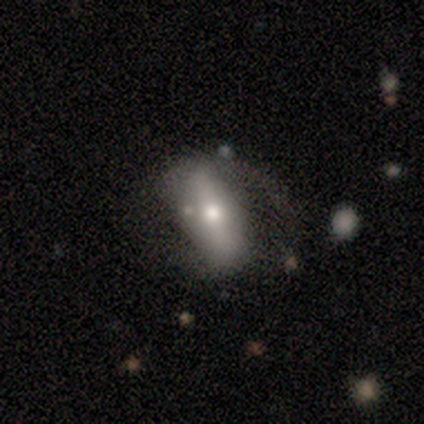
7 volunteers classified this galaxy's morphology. Smooth or featured?
  - smooth: 57% *
  - featured or disk: 43%
  - star or artifact: 0%
How rounded?
  - in between: 100% *
  - round: 0%
  - cigar-shaped: 0%
Merging?
  - none: 43% * (tied)
  - major disturbance: 43% * (tied)
  - merger: 14%
  - minor disturbance: 0%